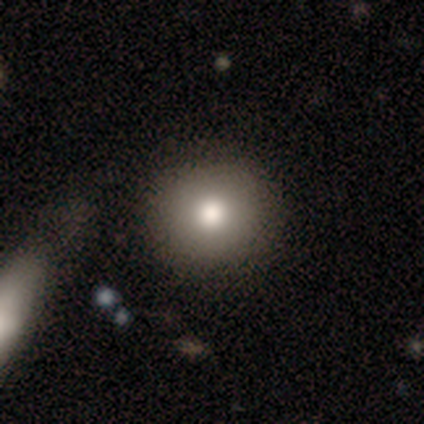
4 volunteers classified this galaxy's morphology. Volunteers were most divided on "merging": none: 50%, minor disturbance: 25%, major disturbance: 25%, merger: 0%. More confident: smooth or featured — smooth (100%); how rounded — round (100%).